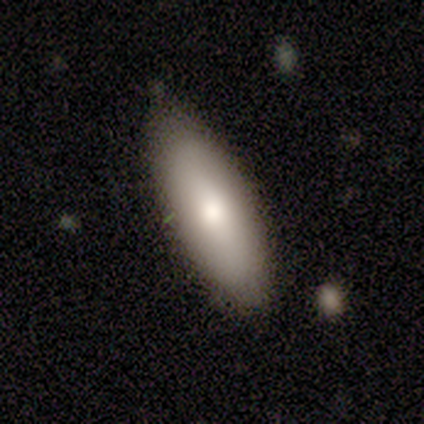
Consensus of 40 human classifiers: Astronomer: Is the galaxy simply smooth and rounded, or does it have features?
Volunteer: smooth — 70%.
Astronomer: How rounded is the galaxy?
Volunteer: in between — 82%.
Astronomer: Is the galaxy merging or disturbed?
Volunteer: none — 62%.